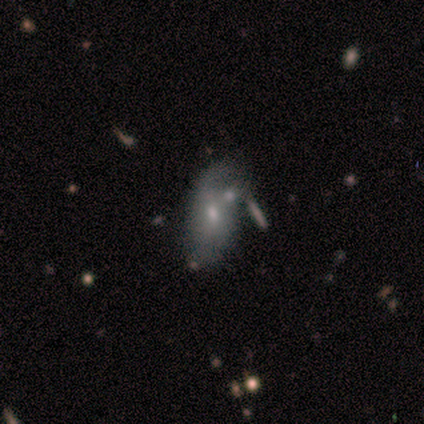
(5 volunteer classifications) Volunteers were most divided on "spiral winding" (3-way tie): tight: 33%, medium: 33%, loose: 33%; "merging" (2-way tie): minor disturbance: 40%, major disturbance: 40%, none: 20%, merger: 0%. More confident: spiral arms — yes (100%); smooth or featured — featured or disk (80%); edge-on disk — no (75%); bar — no (67%); spiral arm count — can't tell (67%); bulge size — small (67%).